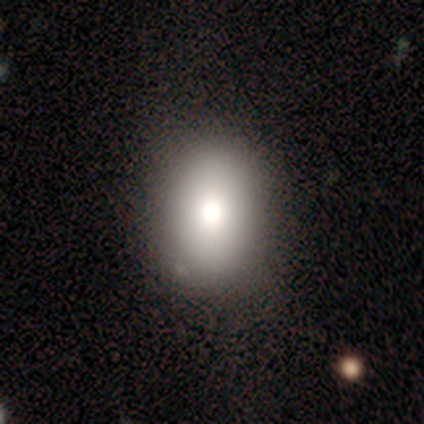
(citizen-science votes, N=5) A smooth galaxy with no disk features (80%) that is round (50%, tied with in between). Merging: none (75%).